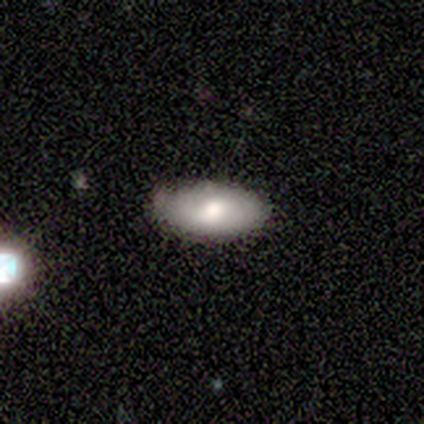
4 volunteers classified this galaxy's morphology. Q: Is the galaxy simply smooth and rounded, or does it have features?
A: smooth — 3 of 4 (75%).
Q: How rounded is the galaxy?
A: in between — 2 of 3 (67%).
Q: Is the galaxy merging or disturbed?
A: none — 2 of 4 (50%).